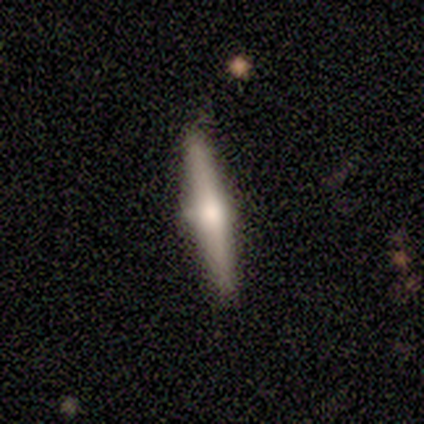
smooth-or-featured: featured or disk: 100% | smooth: 0% | star or artifact: 0%
  disk-edge-on: yes: 100% | no: 0%
    edge-on-bulge: rounded: 100% | boxy: 0% | none: 0%
  merging: none: 60% | minor disturbance: 40% | major disturbance: 0% | merger: 0%